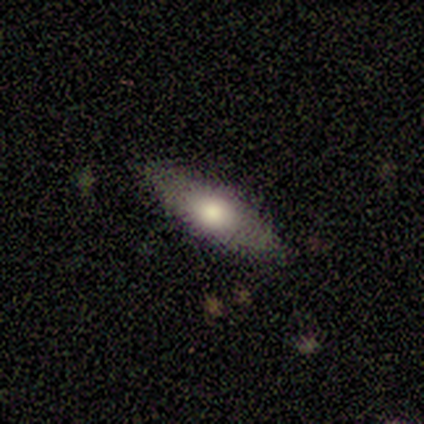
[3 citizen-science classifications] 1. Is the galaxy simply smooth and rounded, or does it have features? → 67% smooth, 33% featured or disk, 0% star or artifact.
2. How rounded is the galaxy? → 50% round (tied), 50% cigar-shaped (tied), 0% in between.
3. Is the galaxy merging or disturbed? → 67% none, 33% major disturbance, 0% minor disturbance, 0% merger.